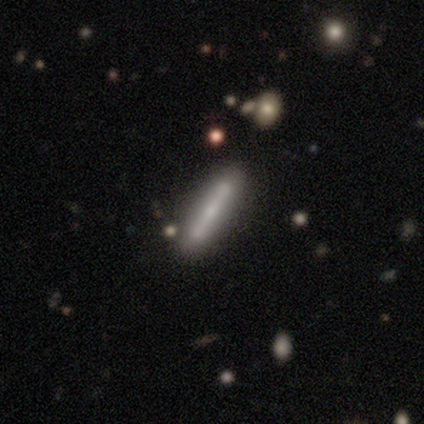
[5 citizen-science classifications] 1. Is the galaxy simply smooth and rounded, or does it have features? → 60% smooth, 40% featured or disk, 0% star or artifact.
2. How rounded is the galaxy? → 100% cigar-shaped, 0% round, 0% in between.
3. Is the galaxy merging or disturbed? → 80% none, 20% merger, 0% minor disturbance, 0% major disturbance.